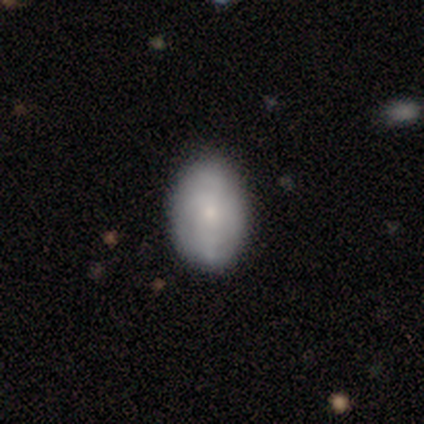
smooth-or-featured: featured or disk: 60% | smooth: 40% | star or artifact: 0%
  disk-edge-on: no: 100% | yes: 0%
    bar: no: 100% | strong: 0% | weak: 0%
    has-spiral-arms: yes: 67% | no: 33%
      spiral-winding: medium: 50% (tied) | loose: 50% (tied) | tight: 0%
      spiral-arm-count: 4: 50% (tied) | can't tell: 50% (tied) | 1: 0% | 2: 0% | 3: 0% | more than 4: 0%
    bulge-size: small: 100% | dominant: 0% | large: 0% | moderate: 0% | none: 0%
  merging: none: 100% | minor disturbance: 0% | major disturbance: 0% | merger: 0%